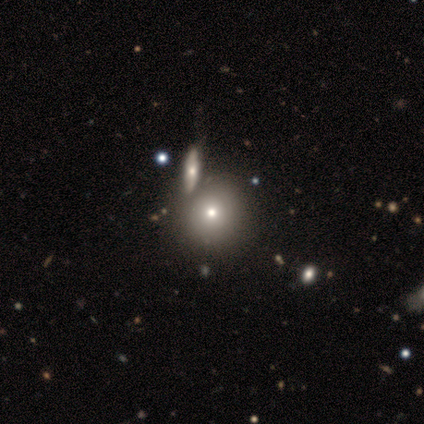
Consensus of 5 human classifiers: smooth 100%, featured or disk 0%, star or artifact 0%. Down the decision tree: how rounded — round (80%); merging — none (80%).